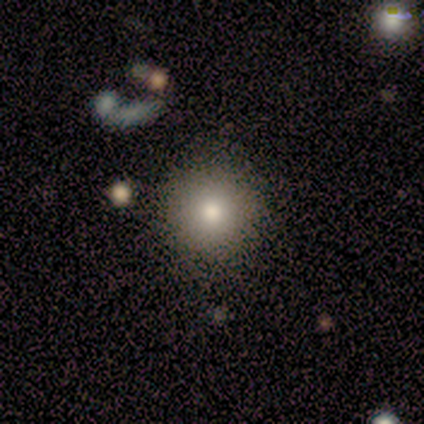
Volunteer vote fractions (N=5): Morphology: type=smooth (100%); roundness=round (80%); merging=none (80%).